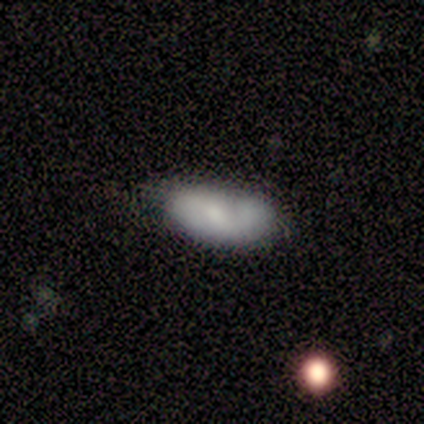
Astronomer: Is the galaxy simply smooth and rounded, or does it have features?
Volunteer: smooth — 80%.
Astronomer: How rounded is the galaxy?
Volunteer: in between — 100%.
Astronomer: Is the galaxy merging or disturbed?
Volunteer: none — 100%.